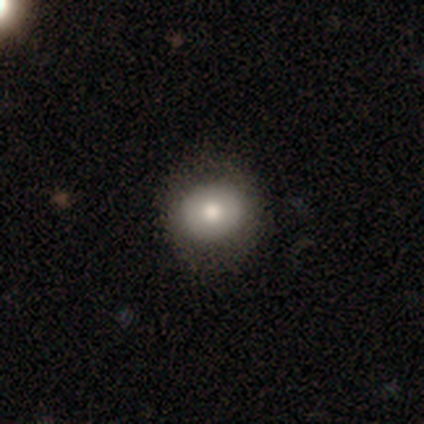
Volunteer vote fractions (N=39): A smooth galaxy with no disk features (64%) that is round (84%).

Vote fractions:
- Smooth or featured? smooth: 64% / featured or disk: 26% / star or artifact: 10%
- How rounded? round: 84% / in between: 16% / cigar-shaped: 0%
- Merging? none: 69% / minor disturbance: 3% / major disturbance: 3% / merger: 0%